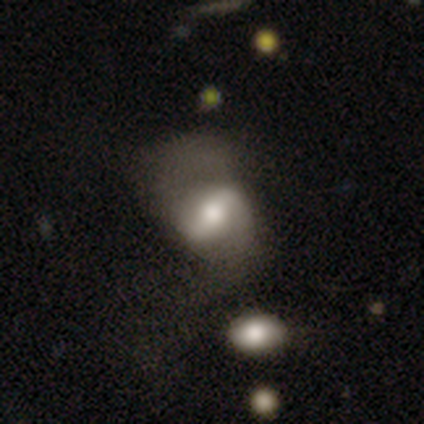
This appears to be a featured or disk galaxy (79%) with a strong bar (50%), 2 (96%) medium (44%) spiral arms (90%) and a moderate central bulge (67%). Merging: major disturbance (50%).